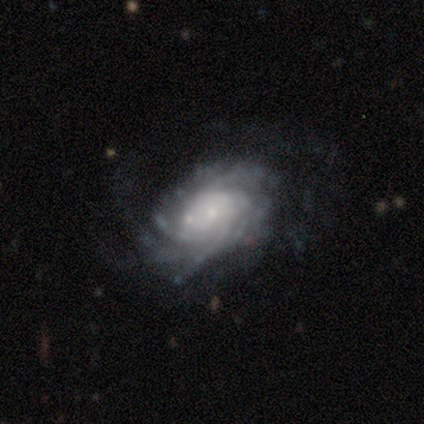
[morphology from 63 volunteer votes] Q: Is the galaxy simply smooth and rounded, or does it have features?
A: featured or disk — 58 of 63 (92%).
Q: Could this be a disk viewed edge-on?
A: no — 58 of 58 (100%).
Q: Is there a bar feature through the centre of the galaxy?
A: no — 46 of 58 (79%).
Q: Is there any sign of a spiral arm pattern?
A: yes — 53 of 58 (91%).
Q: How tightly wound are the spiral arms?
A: tight — 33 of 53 (62%).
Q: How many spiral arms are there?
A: can't tell — 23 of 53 (43%).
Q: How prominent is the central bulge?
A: small — 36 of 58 (62%).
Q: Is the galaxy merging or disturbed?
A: none — 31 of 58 (53%).